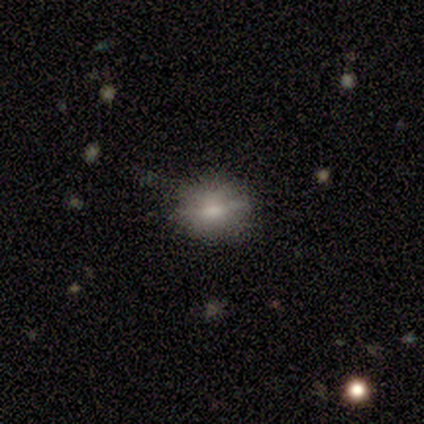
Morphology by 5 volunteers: A smooth galaxy with no disk features (80%) that is round (100%). Merging: none (60%).